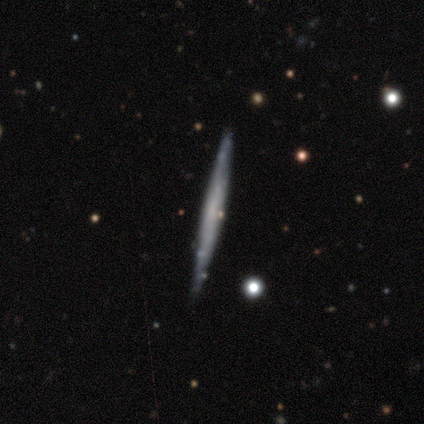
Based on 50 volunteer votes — Smooth or featured?
  - featured or disk: 62% *
  - smooth: 34%
  - star or artifact: 4%
Edge-on disk?
  - yes: 97% *
  - no: 3%
Edge-on bulge?
  - none: 93% *
  - boxy: 3%
  - rounded: 3%
Merging?
  - none: 92% *
  - minor disturbance: 6%
  - merger: 2%
  - major disturbance: 0%